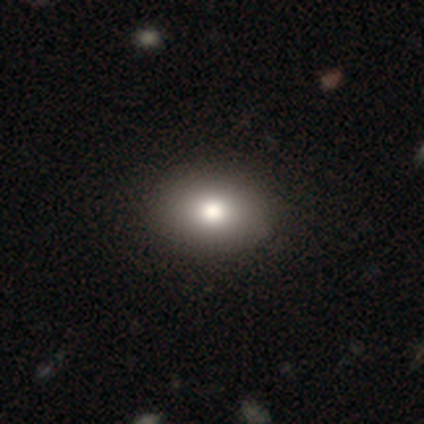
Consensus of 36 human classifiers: Q: Smooth or featured?
A: smooth (78%); runner-up: featured or disk (14%)
Q: How rounded?
A: in between (61%); runner-up: round (39%)
Q: Merging?
A: none (91%); runner-up: minor disturbance (9%)